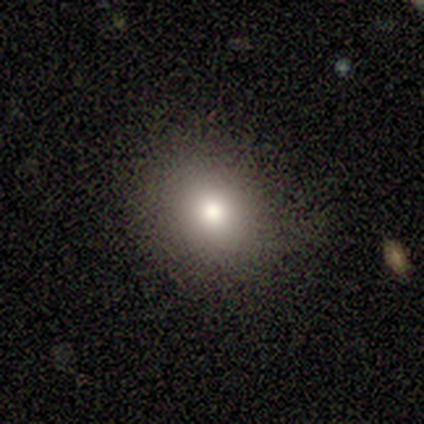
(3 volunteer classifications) A smooth galaxy with no disk features (100%) that is round (67%).

Vote fractions:
- Smooth or featured? smooth: 100% / featured or disk: 0% / star or artifact: 0%
- How rounded? round: 67% / in between: 33% / cigar-shaped: 0%
- Merging? none: 67% / minor disturbance: 33% / major disturbance: 0% / merger: 0%